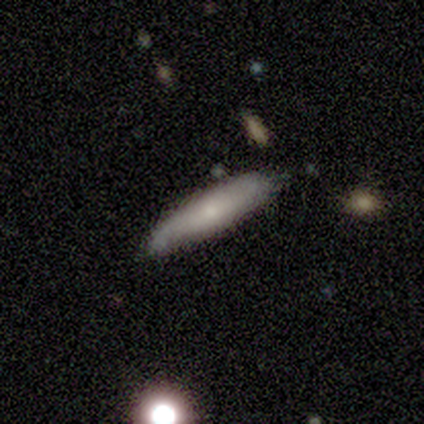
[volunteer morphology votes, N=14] This is likely a smooth galaxy (71%). How rounded: clearly cigar-shaped (80%). Merging: likely none (71%).